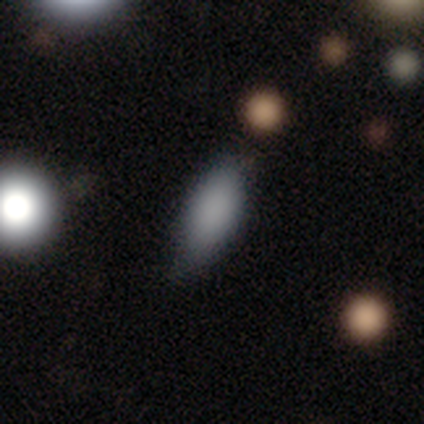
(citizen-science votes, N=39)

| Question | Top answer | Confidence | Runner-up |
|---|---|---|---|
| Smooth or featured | smooth | 87% | featured or disk (8%) |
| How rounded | in between | 85% | cigar-shaped (15%) |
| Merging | none | 70% | minor disturbance (24%) |